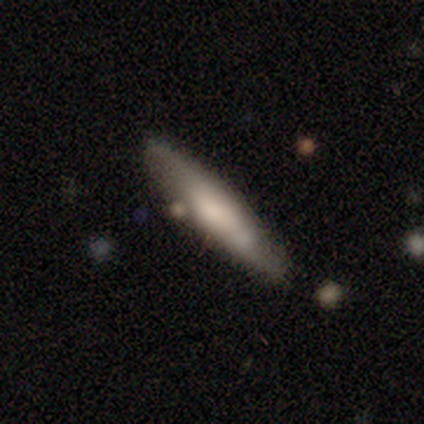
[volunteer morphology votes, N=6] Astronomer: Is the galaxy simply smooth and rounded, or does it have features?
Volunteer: smooth — 67%.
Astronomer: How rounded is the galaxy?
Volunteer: cigar-shaped — 75%.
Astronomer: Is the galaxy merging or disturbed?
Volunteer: none — 100%.